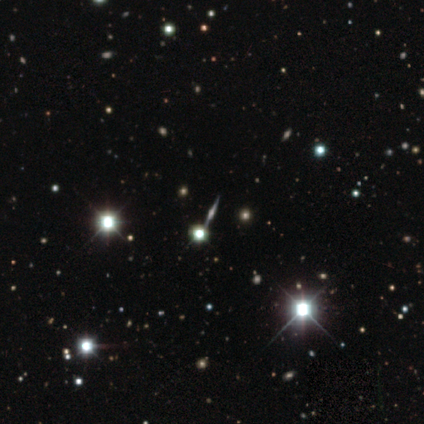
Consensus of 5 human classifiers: Volunteers were most divided on "smooth or featured": star or artifact: 80%, featured or disk: 20%, smooth: 0%.